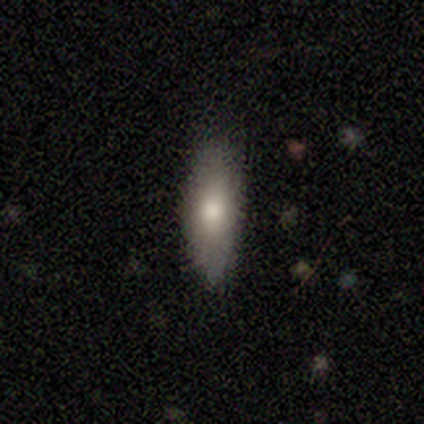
Smooth or featured? 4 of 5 (80%) said smooth. How rounded? 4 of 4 (100%) said in between. Merging? 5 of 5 (100%) said none.